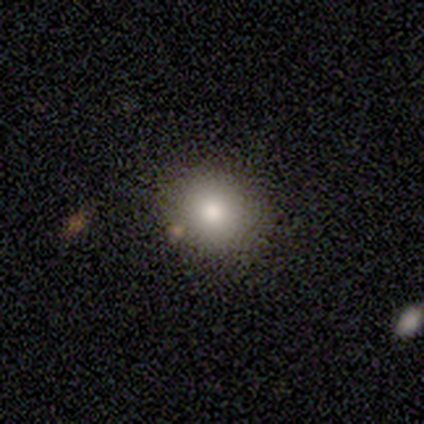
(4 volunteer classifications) Volunteers were most divided on "how rounded": round: 67%, in between: 33%, cigar-shaped: 0%. More confident: smooth or featured — smooth (75%); merging — none (75%).